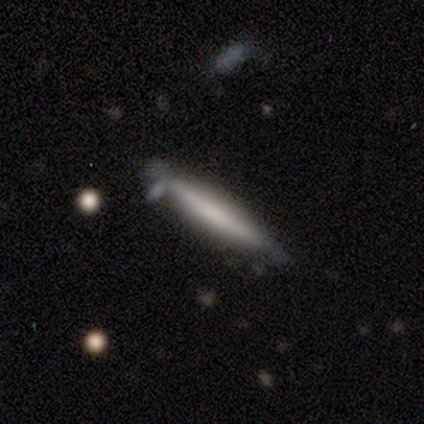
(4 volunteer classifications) smooth-or-featured: smooth: 75% | featured or disk: 25% | star or artifact: 0%
  how-rounded: cigar-shaped: 100% | round: 0% | in between: 0%
  merging: none: 50% | minor disturbance: 25% | merger: 25% | major disturbance: 0%